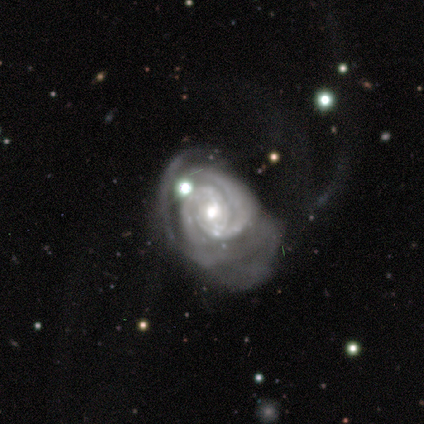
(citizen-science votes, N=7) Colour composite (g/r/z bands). It shows a featured or disk galaxy (100%) with no bar (86%), 2 (57%) tight (86%) spiral arms (100%) and a moderate central bulge (57%). Merging: none (43%, tied with major disturbance).